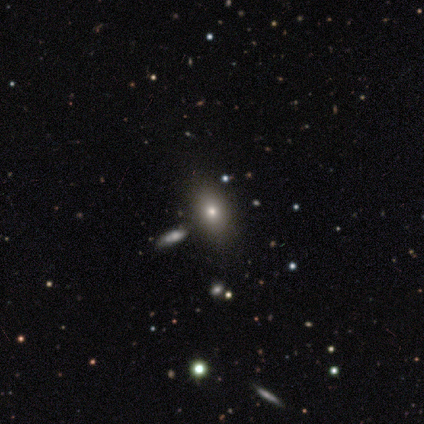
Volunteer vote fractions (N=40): Smooth or featured: smooth — 62% (featured or disk — 22%)
How rounded: in between — 64% (round — 28%)
Merging: none — 85% (minor disturbance — 9%)